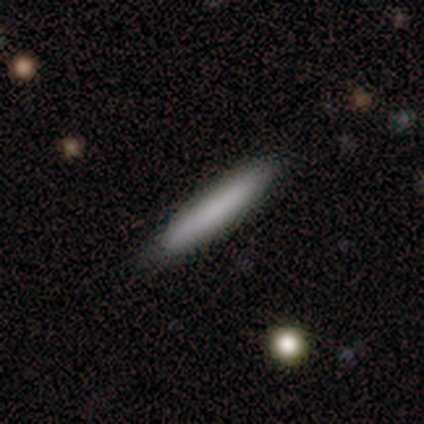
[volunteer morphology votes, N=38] A smooth galaxy with no disk features (87%) that is cigar-shaped (91%).

Vote fractions:
- Smooth or featured? smooth: 87% / featured or disk: 13% / star or artifact: 0%
- How rounded? cigar-shaped: 91% / in between: 6% / round: 3%
- Merging? none: 95% / minor disturbance: 5% / major disturbance: 0% / merger: 0%